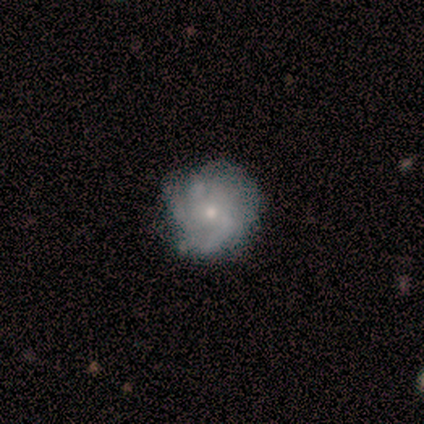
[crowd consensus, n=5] Morphology: type=featured or disk (60%); edge-on=no (67%); bar=weak (50%, tied with no); spiral arms=yes (100%); winding=medium (100%); arm count=can't tell (100%); bulge=small (100%); merging=none (40%, tied with major disturbance).